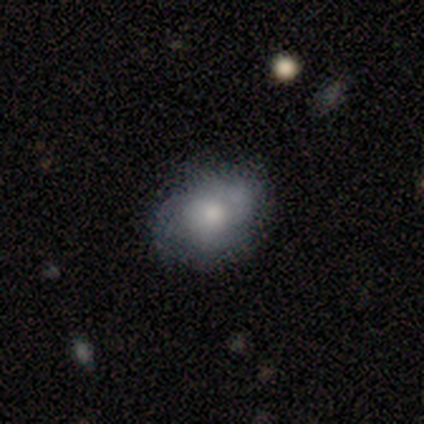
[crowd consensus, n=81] smooth-or-featured: smooth: 56% | featured or disk: 38% | star or artifact: 6%
  how-rounded: in between: 64% | round: 36% | cigar-shaped: 0%
  merging: none: 61% | minor disturbance: 33% | major disturbance: 4% | merger: 3%